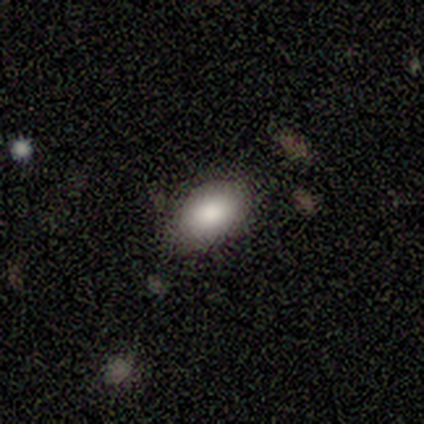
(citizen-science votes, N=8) Smooth or featured? smooth (88%)
How rounded? in between (100%)
Merging? none (86%)